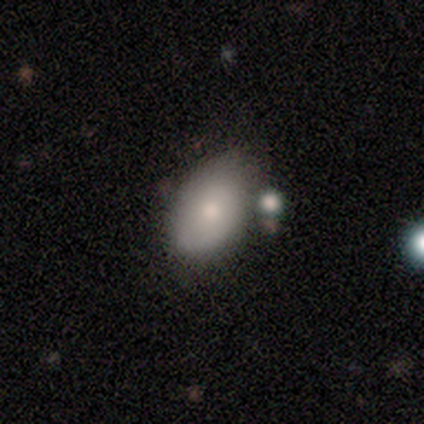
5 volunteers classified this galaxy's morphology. This appears to be a smooth galaxy with no disk features (60%) that is in between round and cigar-shaped (100%). Merging: none (60%).